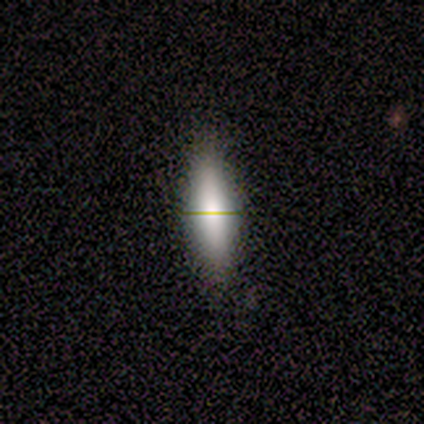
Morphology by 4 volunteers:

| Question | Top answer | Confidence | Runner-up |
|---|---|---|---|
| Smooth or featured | smooth | 75% | featured or disk (25%) |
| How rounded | cigar-shaped | 67% | in between (33%) |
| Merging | none | 100% | — |